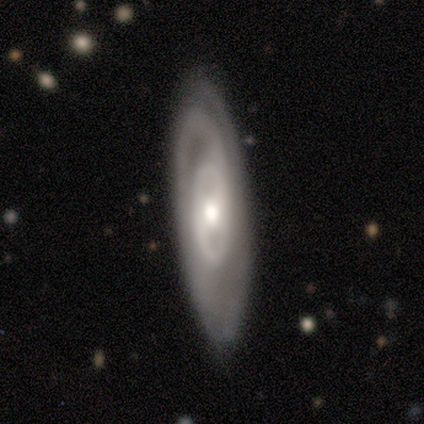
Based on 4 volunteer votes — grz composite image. It shows a featured or disk galaxy (100%) with no bar (67%), 1 (50%, tied with can't tell) loose (100%) spiral arms (67%) and a small central bulge (67%). Merging: none (50%, tied with minor disturbance).